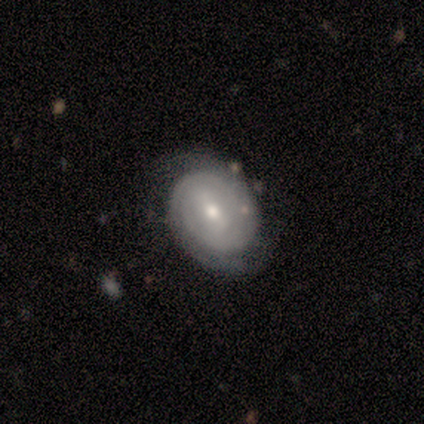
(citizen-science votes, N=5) Smooth or featured?
  - featured or disk: 100% *
  - smooth: 0%
  - star or artifact: 0%
Edge-on disk?
  - no: 100% *
  - yes: 0%
Bar?
  - weak: 60% *
  - strong: 20%
  - no: 20%
Spiral arms?
  - yes: 100% *
  - no: 0%
Spiral winding?
  - tight: 100% *
  - medium: 0%
  - loose: 0%
Spiral arm count?
  - can't tell: 60% *
  - 2: 20%
  - 3: 20%
  - 1: 0%
  - 4: 0%
  - more than 4: 0%
Bulge size?
  - moderate: 80% *
  - small: 20%
  - dominant: 0%
  - large: 0%
  - none: 0%
Merging?
  - none: 100% *
  - minor disturbance: 0%
  - major disturbance: 0%
  - merger: 0%